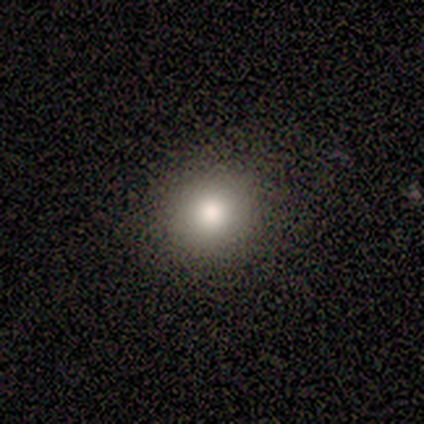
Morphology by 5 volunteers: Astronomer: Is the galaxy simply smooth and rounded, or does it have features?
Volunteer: smooth — 80%.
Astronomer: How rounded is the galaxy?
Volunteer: round — 50%, tied with in between at 50%.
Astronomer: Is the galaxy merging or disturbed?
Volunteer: none — 100%.